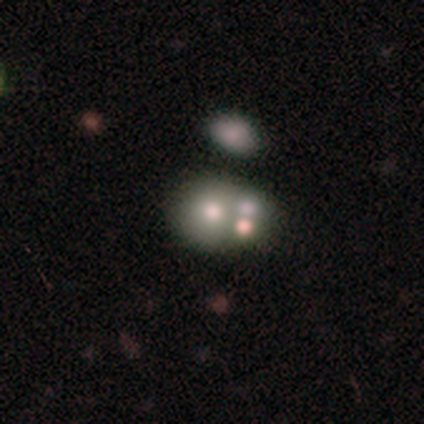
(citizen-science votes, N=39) A featured or disk galaxy (49%) with no bar (100%), no spiral arms (100%) and a moderate central bulge (68%). Merging: merger (62%).